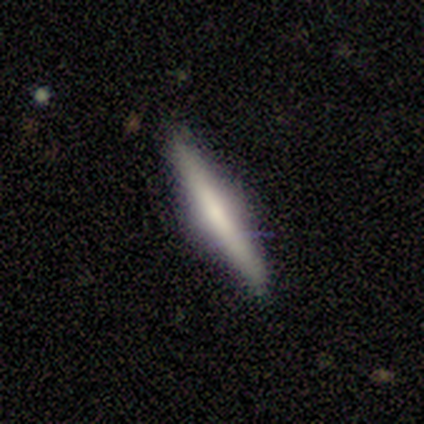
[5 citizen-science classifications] A featured or disk galaxy (60%) viewed edge-on (100%) with a rounded central bulge (67%). Merging: none (100%).